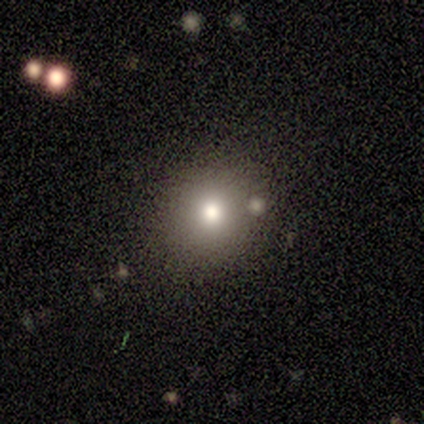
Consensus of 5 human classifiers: A smooth galaxy with no disk features (80%) that is round (75%).

Vote fractions:
- Smooth or featured? smooth: 80% / featured or disk: 20% / star or artifact: 0%
- How rounded? round: 75% / in between: 25% / cigar-shaped: 0%
- Merging? none: 60% / minor disturbance: 20% / major disturbance: 20% / merger: 0%